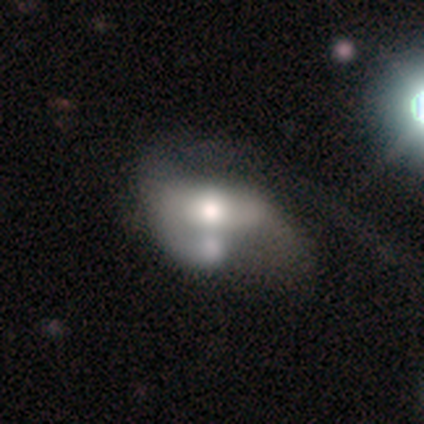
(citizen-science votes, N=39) Smooth or featured: featured or disk — 49% (smooth — 44%)
Edge-on disk: no — 89% (yes — 11%)
Bar: no — 59% (weak — 35%)
Spiral arms: no — 53% (yes — 47%)
Bulge size: moderate — 53% (large — 35%)
Merging: merger — 33% (major disturbance — 19%)